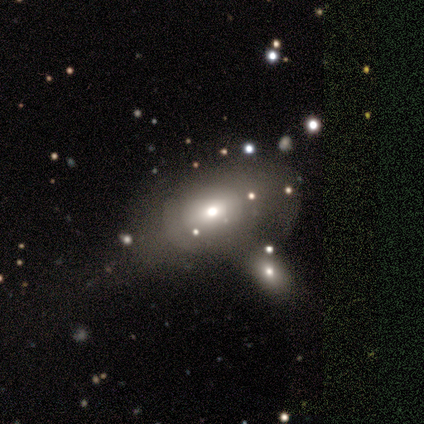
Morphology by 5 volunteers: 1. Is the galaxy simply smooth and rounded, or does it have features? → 40% smooth (tied), 40% featured or disk (tied), 20% star or artifact.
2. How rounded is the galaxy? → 100% in between, 0% round, 0% cigar-shaped.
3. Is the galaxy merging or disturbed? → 50% minor disturbance, 25% none, 25% merger, 0% major disturbance.